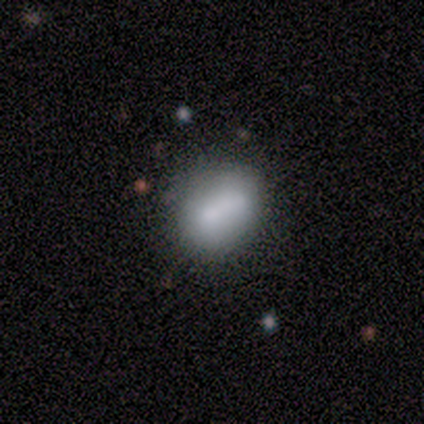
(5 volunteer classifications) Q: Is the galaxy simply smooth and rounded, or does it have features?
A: smooth — 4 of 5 (80%).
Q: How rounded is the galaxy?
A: round — 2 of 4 (50%, tied with in between).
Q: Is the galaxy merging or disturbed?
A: none — 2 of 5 (40%, tied with merger).